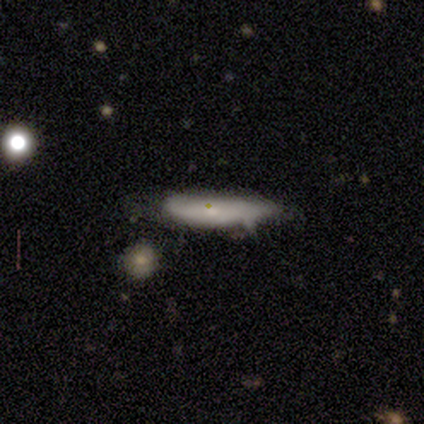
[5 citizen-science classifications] Smooth or featured? smooth (60%)
How rounded? cigar-shaped (100%)
Merging? none (50%)